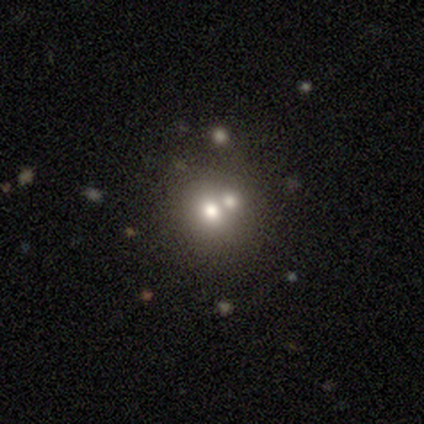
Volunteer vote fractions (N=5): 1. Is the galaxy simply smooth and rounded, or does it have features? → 40% smooth (tied), 40% star or artifact (tied), 20% featured or disk.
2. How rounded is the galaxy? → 50% round (tied), 50% in between (tied), 0% cigar-shaped.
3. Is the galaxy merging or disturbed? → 67% none, 33% merger, 0% minor disturbance, 0% major disturbance.